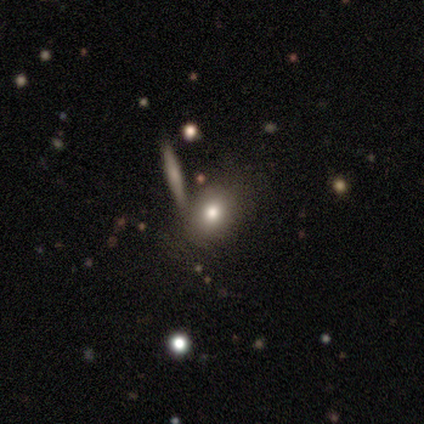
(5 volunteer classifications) Q: Smooth or featured?
A: smooth (60%); runner-up: featured or disk (20%)
Q: How rounded?
A: in between (100%)
Q: Merging?
A: none (75%); runner-up: minor disturbance (25%)